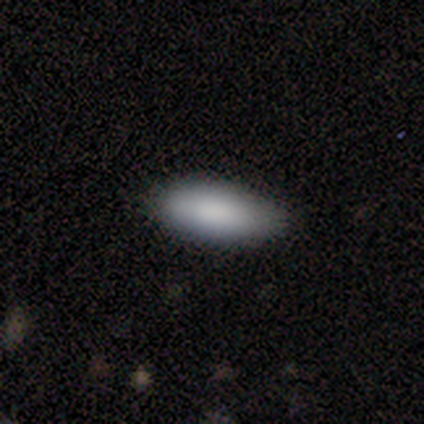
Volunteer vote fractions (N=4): Smooth or featured?
  - smooth: 75% *
  - star or artifact: 25%
  - featured or disk: 0%
How rounded?
  - in between: 100% *
  - round: 0%
  - cigar-shaped: 0%
Merging?
  - none: 100% *
  - minor disturbance: 0%
  - major disturbance: 0%
  - merger: 0%